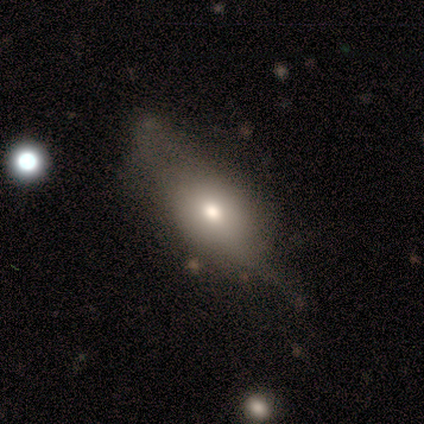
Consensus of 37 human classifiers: A smooth galaxy with no disk features (73%) that is in between round and cigar-shaped (78%).

Vote fractions:
- Smooth or featured? smooth: 73% / featured or disk: 27% / star or artifact: 0%
- How rounded? in between: 78% / round: 15% / cigar-shaped: 7%
- Merging? none: 22% (tied) / minor disturbance: 22% (tied) / major disturbance: 14% / merger: 5%